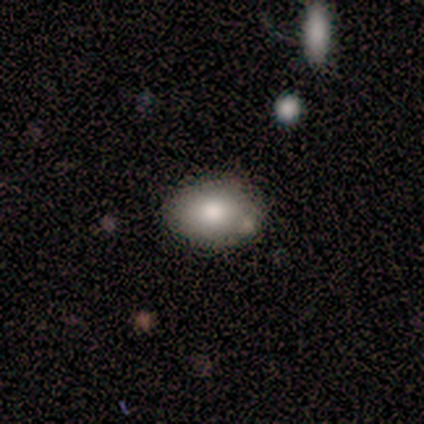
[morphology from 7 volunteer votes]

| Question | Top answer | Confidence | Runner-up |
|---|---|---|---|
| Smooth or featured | smooth | 86% | featured or disk (14%) |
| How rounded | in between | 100% | — |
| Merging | none | 71% | merger (29%) |